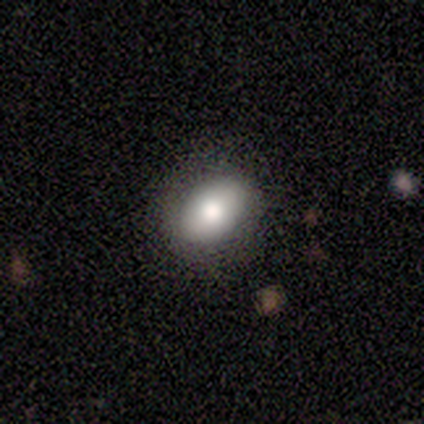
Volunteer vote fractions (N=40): Smooth or featured? 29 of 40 (72%) said smooth. How rounded? 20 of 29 (69%) said in between. Merging? 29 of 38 (76%) said none.